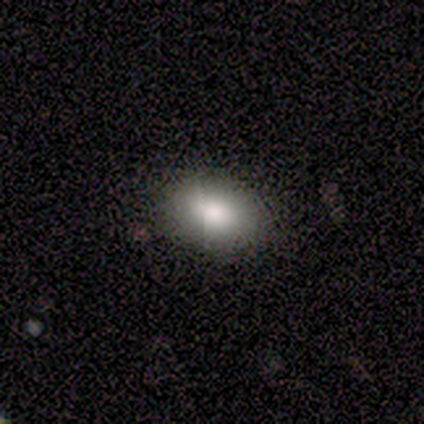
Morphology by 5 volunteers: Q: Smooth or featured?
A: smooth (80%); runner-up: featured or disk (20%)
Q: How rounded?
A: in between (75%); runner-up: round (25%)
Q: Merging?
A: none (100%)